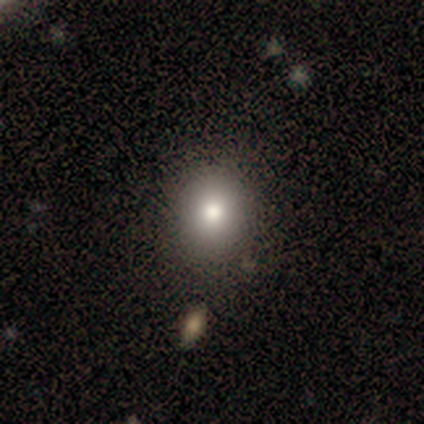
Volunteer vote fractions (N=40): Volunteers were most divided on "how rounded": round: 61%, in between: 36%, cigar-shaped: 4%. More confident: smooth or featured — smooth (70%); merging — none (68%).